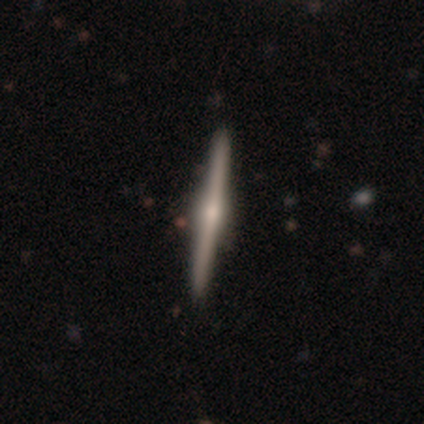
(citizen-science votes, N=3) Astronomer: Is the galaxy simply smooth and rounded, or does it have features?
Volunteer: featured or disk — 100%.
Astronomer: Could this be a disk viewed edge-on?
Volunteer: yes — 100%.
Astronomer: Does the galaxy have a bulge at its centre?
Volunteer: rounded — 100%.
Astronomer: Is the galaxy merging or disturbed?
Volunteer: none — 100%.